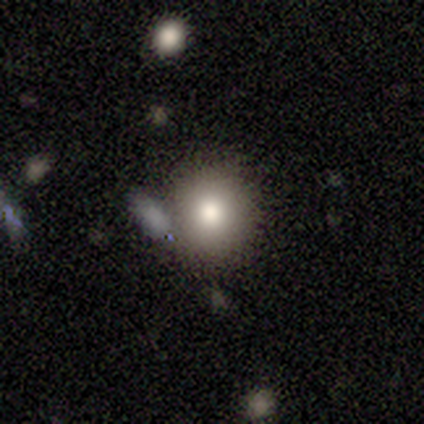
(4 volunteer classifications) Consensus on every question: smooth or featured — smooth (100%); how rounded — round (100%); merging — none (100%).